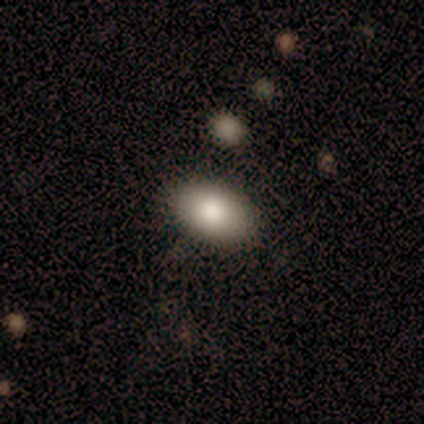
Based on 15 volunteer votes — smooth_or_featured: smooth (p=0.87) [alt: featured or disk p=0.07]
how_rounded: in between (p=0.92) [alt: round p=0.08]
merging: none (p=0.93) [alt: merger p=0.07]